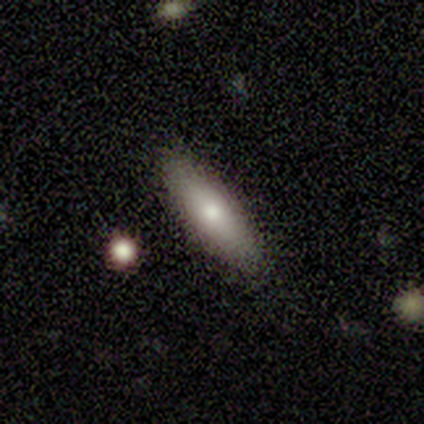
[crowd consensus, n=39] A smooth galaxy with no disk features (72%) that is cigar-shaped (61%).

Vote fractions:
- Smooth or featured? smooth: 72% / featured or disk: 23% / star or artifact: 5%
- How rounded? cigar-shaped: 61% / in between: 39% / round: 0%
- Merging? none: 89% / minor disturbance: 11% / major disturbance: 0% / merger: 0%